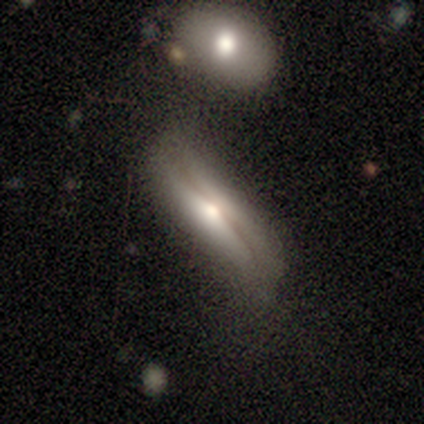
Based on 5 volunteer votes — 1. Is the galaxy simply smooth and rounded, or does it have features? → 80% featured or disk, 20% smooth, 0% star or artifact.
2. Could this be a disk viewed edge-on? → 75% yes, 25% no.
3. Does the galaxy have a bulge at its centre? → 100% rounded, 0% boxy, 0% none.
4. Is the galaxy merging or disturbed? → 40% merger, 20% none, 20% minor disturbance, 20% major disturbance.